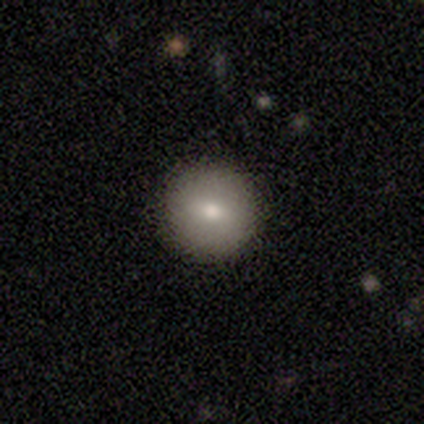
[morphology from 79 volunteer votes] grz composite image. It shows a smooth galaxy with no disk features (72%) that is round (95%). Merging: none (58%).